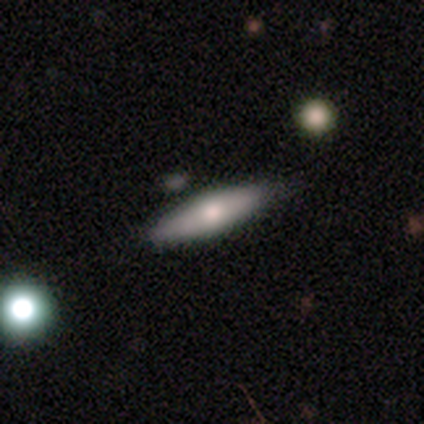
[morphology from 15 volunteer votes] A smooth galaxy with no disk features (67%) that is cigar-shaped (70%).

Vote fractions:
- Smooth or featured? smooth: 67% / featured or disk: 33% / star or artifact: 0%
- How rounded? cigar-shaped: 70% / in between: 30% / round: 0%
- Merging? none: 87% / minor disturbance: 13% / major disturbance: 0% / merger: 0%